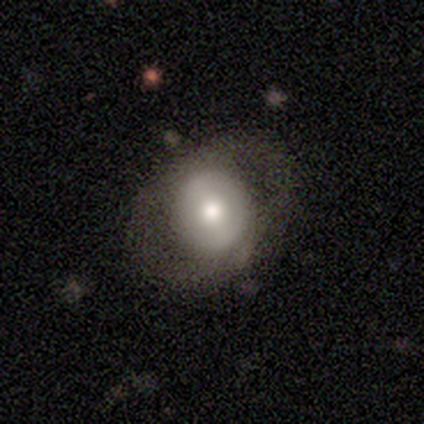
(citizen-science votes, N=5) Smooth or featured: featured or disk — 80% (smooth — 20%)
Edge-on disk: no — 100%
Bar: no — 50% (strong — 25%)
Spiral arms: no — 75% (yes — 25%)
Bulge size: moderate — 100%
Merging: none — 100%